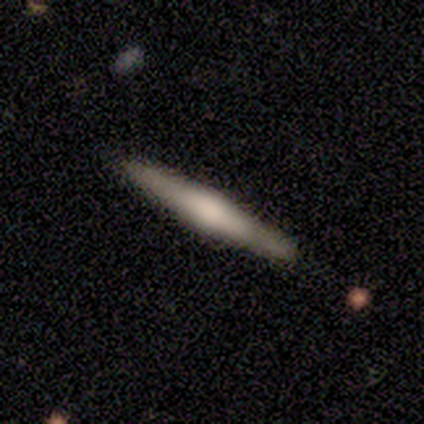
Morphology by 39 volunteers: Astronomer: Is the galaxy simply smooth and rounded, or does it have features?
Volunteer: featured or disk — 62%.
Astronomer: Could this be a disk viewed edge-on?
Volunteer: yes — 96%.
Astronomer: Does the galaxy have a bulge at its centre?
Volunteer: rounded — 52% (runner-up: boxy, 30%).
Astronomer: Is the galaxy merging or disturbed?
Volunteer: none — 63%.